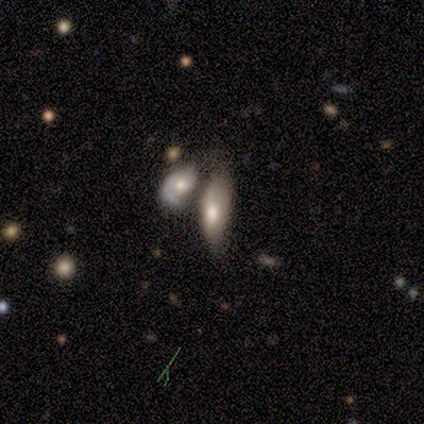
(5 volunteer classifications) This is clearly a smooth galaxy (80%). How rounded: clearly in between (100%). Merging: clearly merger (80%).